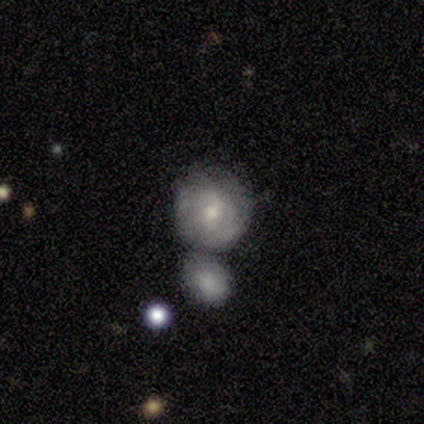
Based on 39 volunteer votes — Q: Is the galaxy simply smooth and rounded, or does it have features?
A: featured or disk — 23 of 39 (59%).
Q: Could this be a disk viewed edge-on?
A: no — 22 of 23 (96%).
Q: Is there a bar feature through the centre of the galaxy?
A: weak — 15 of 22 (68%).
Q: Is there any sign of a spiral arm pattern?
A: yes — 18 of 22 (82%).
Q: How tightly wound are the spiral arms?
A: tight — 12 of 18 (67%).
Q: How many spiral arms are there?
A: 2 — 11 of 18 (61%).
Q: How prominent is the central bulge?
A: small — 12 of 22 (55%).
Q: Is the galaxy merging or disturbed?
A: none — 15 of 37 (41%, tied with merger).